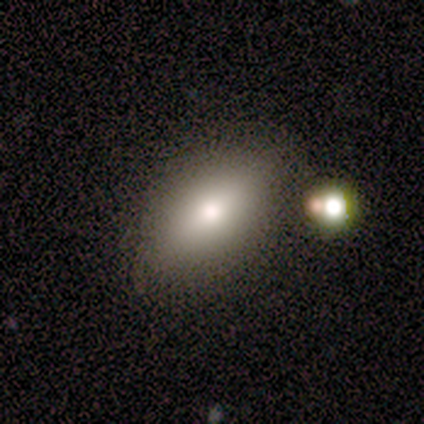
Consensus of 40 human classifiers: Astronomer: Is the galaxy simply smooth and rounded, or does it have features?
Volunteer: smooth — 70%.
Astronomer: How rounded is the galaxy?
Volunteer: in between — 86%.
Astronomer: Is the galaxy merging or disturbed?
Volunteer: none — 71%.